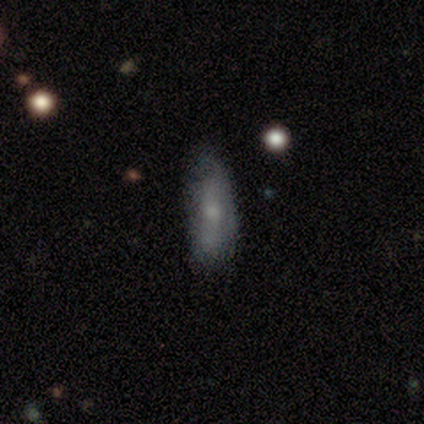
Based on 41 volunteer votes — smooth-or-featured: smooth: 61% | featured or disk: 32% | star or artifact: 7%
  how-rounded: in between: 60% | cigar-shaped: 36% | round: 4%
  merging: none: 61% | minor disturbance: 32% | major disturbance: 5% | merger: 3%